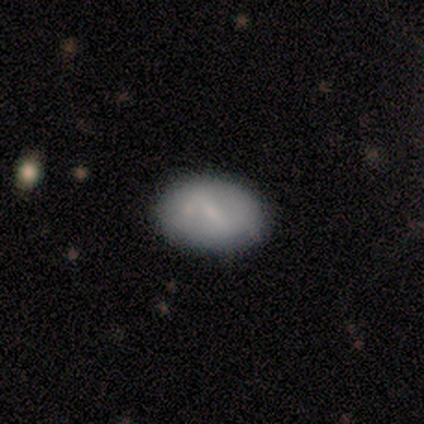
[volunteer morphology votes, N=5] This is clearly a smooth galaxy (80%). How rounded: clearly in between (100%). Merging: clearly none (80%).